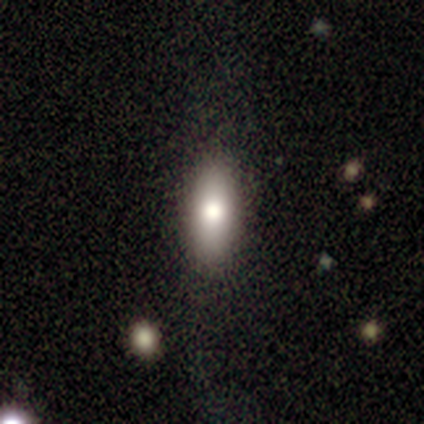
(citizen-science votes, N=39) Smooth or featured? 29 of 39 (74%) said smooth. How rounded? 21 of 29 (72%) said in between. Merging? 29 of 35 (83%) said none.